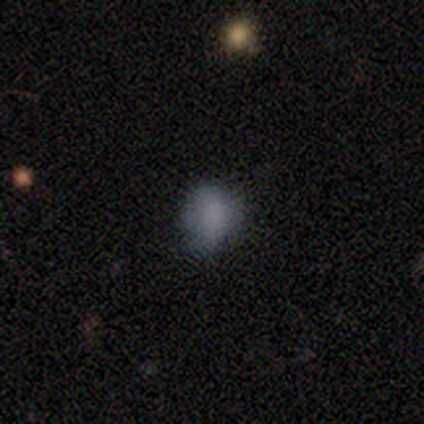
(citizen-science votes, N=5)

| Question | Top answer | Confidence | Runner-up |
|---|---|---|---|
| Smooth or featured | smooth | 60% | featured or disk (20%) |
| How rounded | in between | 67% | round (33%) |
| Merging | none | 50% | tied: minor disturbance (50%) |